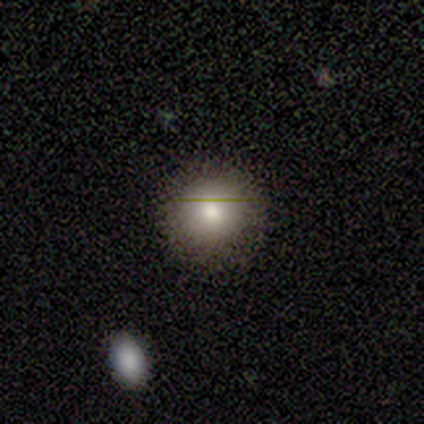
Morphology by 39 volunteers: Smooth or featured? smooth (87%)
How rounded? round (85%)
Merging? none (86%)